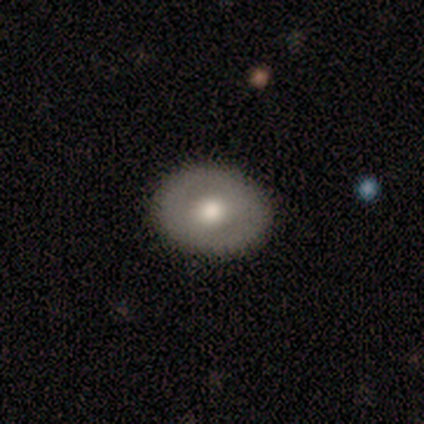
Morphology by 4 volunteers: Smooth or featured? featured or disk (75%)
Edge-on disk? no (100%)
Bar? no (67%)
Spiral arms? no (100%)
Bulge size? moderate (100%)
Merging? none (100%)